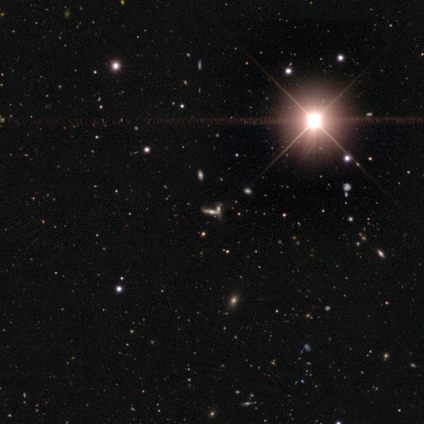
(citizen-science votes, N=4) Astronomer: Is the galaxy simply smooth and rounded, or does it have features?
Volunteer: star or artifact — 100%.